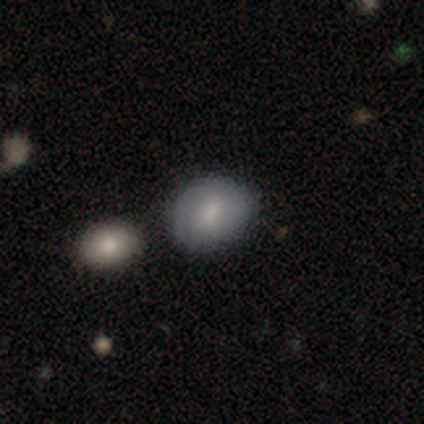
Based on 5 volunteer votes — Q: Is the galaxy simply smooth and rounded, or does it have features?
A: smooth — 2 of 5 (40%, tied with featured or disk).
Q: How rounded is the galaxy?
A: round — 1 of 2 (50%, tied with cigar-shaped).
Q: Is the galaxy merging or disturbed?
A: none — 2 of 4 (50%).